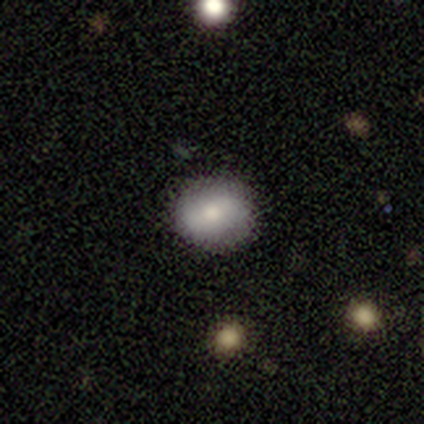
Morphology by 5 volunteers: smooth_or_featured: smooth (p=0.80) [alt: featured or disk p=0.20]
how_rounded: round (p=0.75) [alt: in between p=0.25]
merging: none (p=0.80) [alt: major disturbance p=0.20]